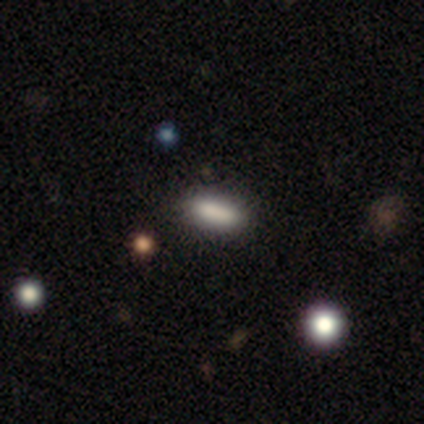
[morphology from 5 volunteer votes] Smooth or featured? 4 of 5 (80%) said smooth. How rounded? 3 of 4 (75%) said in between. Merging? 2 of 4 (50%, tied with minor disturbance) said none.